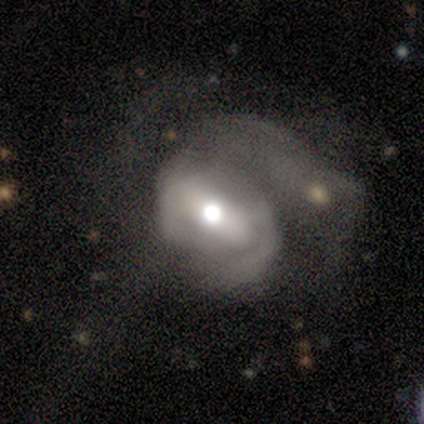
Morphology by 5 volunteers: A featured or disk galaxy (60%) with no bar (67%), no spiral arms (100%) and a moderate central bulge (67%).

Vote fractions:
- Smooth or featured? featured or disk: 60% / smooth: 40% / star or artifact: 0%
- Edge-on disk? no: 100% / yes: 0%
- Bar? no: 67% / strong: 33% / weak: 0%
- Spiral arms? no: 100% / yes: 0%
- Bulge size? moderate: 67% / large: 33% / dominant: 0% / small: 0% / none: 0%
- Merging? major disturbance: 60% / none: 40% / minor disturbance: 0% / merger: 0%